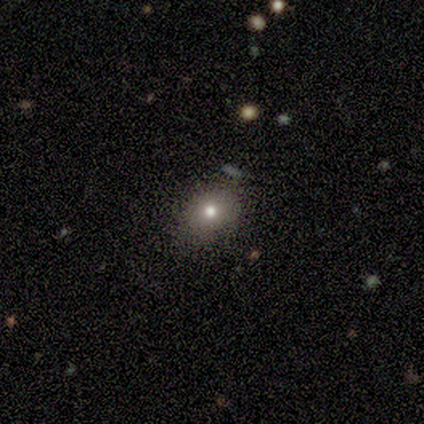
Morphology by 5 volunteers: This appears to be a smooth galaxy with no disk features (80%) that is round (75%). Merging: none (100%).